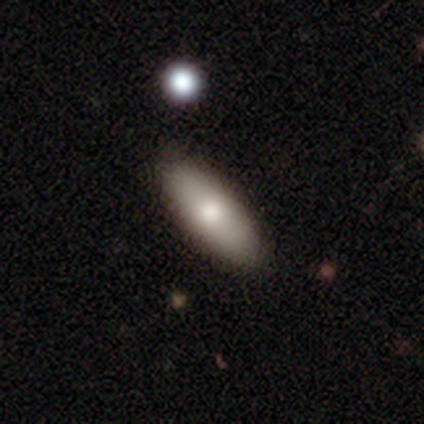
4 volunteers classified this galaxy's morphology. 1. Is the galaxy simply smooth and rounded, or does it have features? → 75% smooth, 25% featured or disk, 0% star or artifact.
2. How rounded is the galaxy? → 100% in between, 0% round, 0% cigar-shaped.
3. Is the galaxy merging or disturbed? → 100% none, 0% minor disturbance, 0% major disturbance, 0% merger.